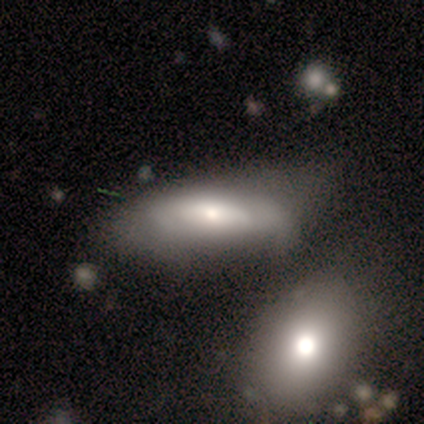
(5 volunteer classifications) Volunteers were most divided on "merging" (2-way tie): none: 40%, merger: 40%, major disturbance: 20%, minor disturbance: 0%. More confident: how rounded — in between (100%); smooth or featured — smooth (80%).